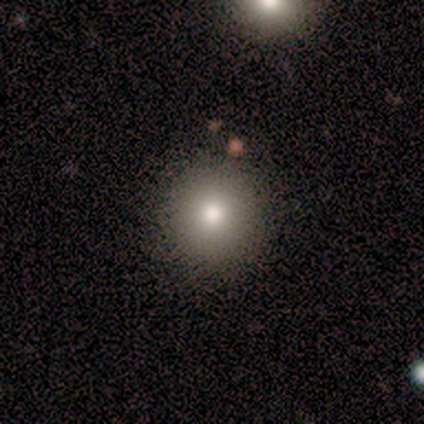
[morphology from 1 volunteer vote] type=smooth (100%); roundness=round (100%); merging=none (100%).